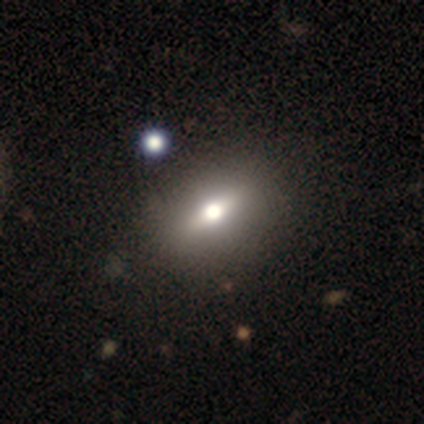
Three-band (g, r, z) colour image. It shows a smooth galaxy with no disk features (50%, tied with featured or disk) that is round (50%, tied with in between). Merging: none (100%).